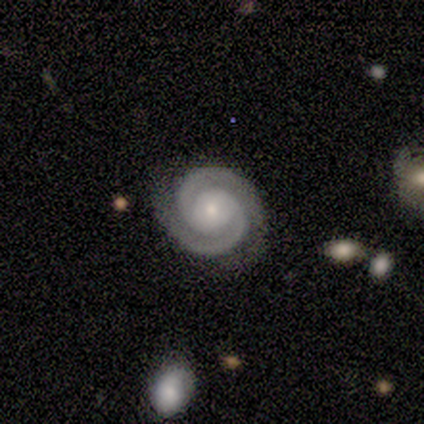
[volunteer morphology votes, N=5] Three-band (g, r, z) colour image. It shows a featured or disk galaxy (100%) with no bar (100%), 2 (100%) tight (100%) spiral arms (100%) and a small central bulge (80%). Merging: none (100%).